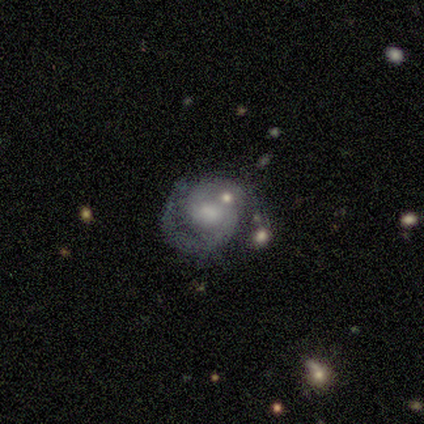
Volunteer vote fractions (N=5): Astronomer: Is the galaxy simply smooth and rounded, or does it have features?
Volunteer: featured or disk — 100%.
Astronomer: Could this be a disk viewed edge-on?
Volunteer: no — 100%.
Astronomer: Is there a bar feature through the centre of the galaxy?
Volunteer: no — 80%.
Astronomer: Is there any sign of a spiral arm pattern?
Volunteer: yes — 100%.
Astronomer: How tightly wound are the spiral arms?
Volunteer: medium — 60% (runner-up: tight, 40%).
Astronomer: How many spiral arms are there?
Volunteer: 2 — 60% (runner-up: 1, 40%).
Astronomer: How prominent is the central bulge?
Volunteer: small — 40%, tied with none at 40%.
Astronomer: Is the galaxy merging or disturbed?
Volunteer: none — 40%, tied with minor disturbance at 40%.